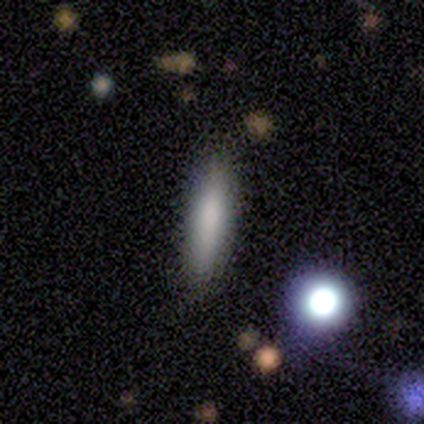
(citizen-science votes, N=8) A smooth galaxy with no disk features (88%) that is cigar-shaped (86%).

Vote fractions:
- Smooth or featured? smooth: 88% / featured or disk: 12% / star or artifact: 0%
- How rounded? cigar-shaped: 86% / in between: 14% / round: 0%
- Merging? none: 75% / minor disturbance: 25% / major disturbance: 0% / merger: 0%